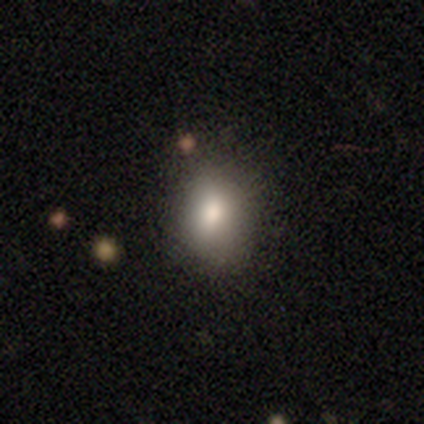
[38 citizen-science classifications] Smooth or featured? smooth (74%)
How rounded? in between (68%)
Merging? none (52%)